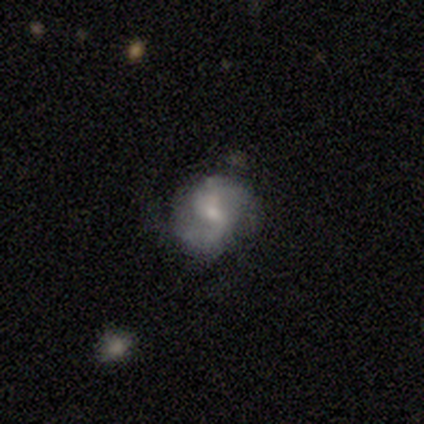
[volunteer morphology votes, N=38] Volunteers were most divided on "bulge size": small: 55%, moderate: 45%, dominant: 0%, large: 0%, none: 0%. More confident: edge-on disk — no (94%); spiral arms — yes (86%); smooth or featured — featured or disk (82%); spiral arm count — 2 (80%); merging — none (78%); spiral winding — medium (72%); bar — weak (66%).